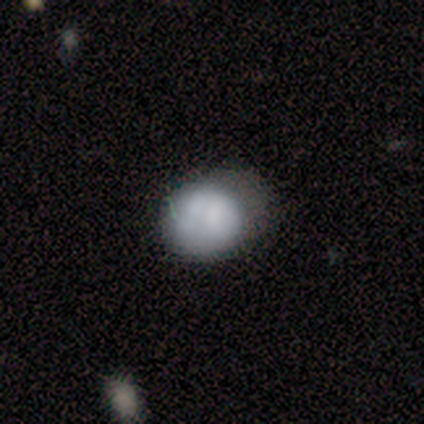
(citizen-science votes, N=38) This is likely a smooth galaxy (66%). How rounded: likely round (72%). Merging: possibly none (55%).